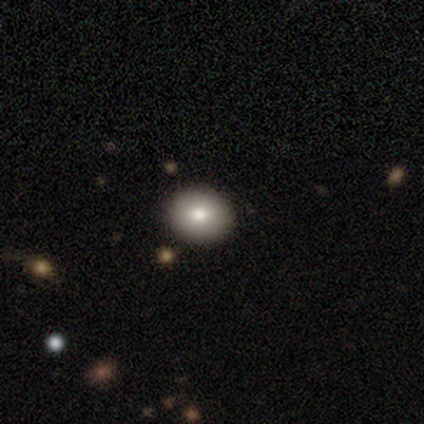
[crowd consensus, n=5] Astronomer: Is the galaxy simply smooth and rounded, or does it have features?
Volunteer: smooth — 80%.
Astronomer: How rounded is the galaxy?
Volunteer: round — 75%.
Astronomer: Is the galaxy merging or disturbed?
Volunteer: none — 100%.